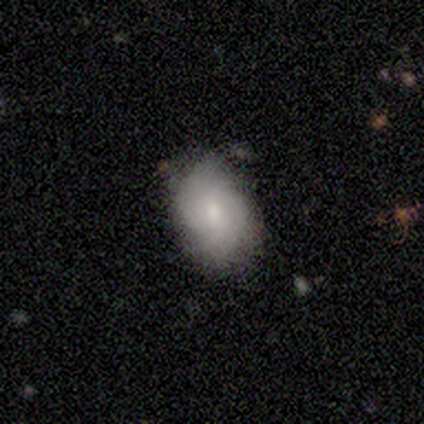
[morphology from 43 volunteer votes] This appears to be a smooth galaxy with no disk features (70%) that is in between round and cigar-shaped (77%). Merging: none (73%).